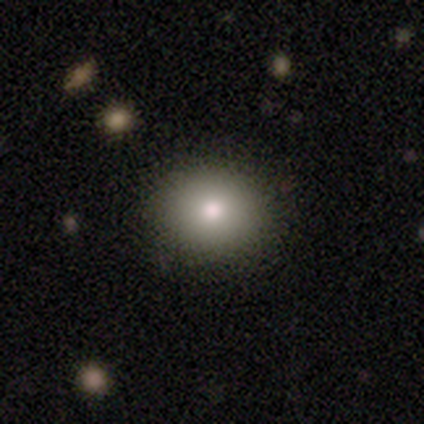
Morphology: type=smooth (74%); roundness=round (69%); merging=none (94%).